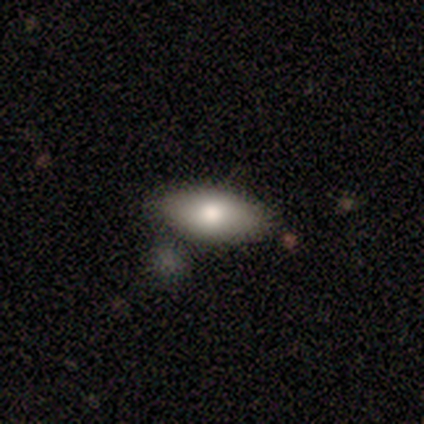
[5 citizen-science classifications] Smooth or featured?
  - smooth: 60% *
  - featured or disk: 20%
  - star or artifact: 20%
How rounded?
  - in between: 67% *
  - round: 33%
  - cigar-shaped: 0%
Merging?
  - none: 100% *
  - minor disturbance: 0%
  - major disturbance: 0%
  - merger: 0%